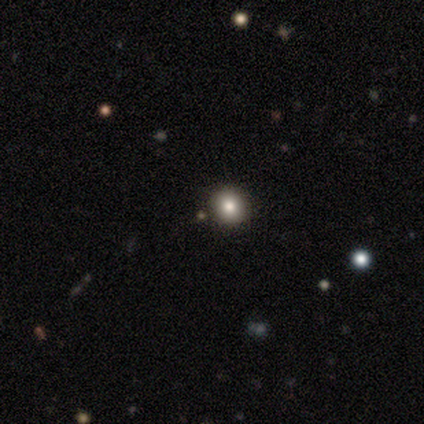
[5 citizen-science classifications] A smooth galaxy with no disk features (60%) that is round (100%).

Vote fractions:
- Smooth or featured? smooth: 60% / featured or disk: 20% / star or artifact: 20%
- How rounded? round: 100% / in between: 0% / cigar-shaped: 0%
- Merging? none: 75% / minor disturbance: 25% / major disturbance: 0% / merger: 0%